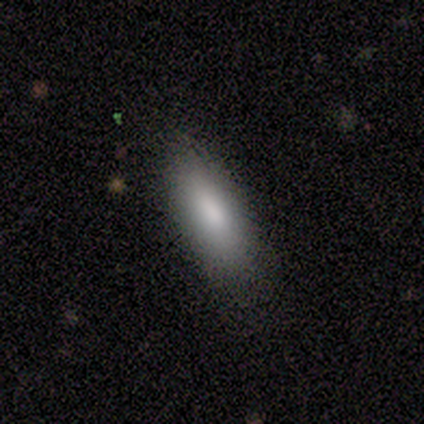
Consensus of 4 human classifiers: Smooth or featured? 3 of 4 (75%) said smooth. How rounded? 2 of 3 (67%) said in between. Merging? 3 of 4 (75%) said none.